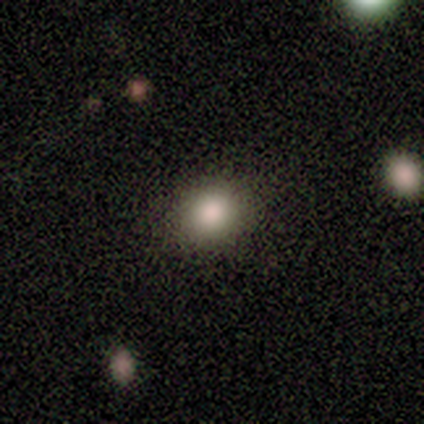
This is possibly a smooth galaxy (57%). How rounded: clearly round (100%). Merging: clearly none (100%).